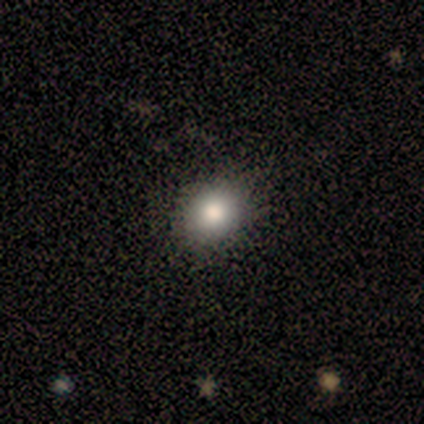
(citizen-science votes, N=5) smooth 80%, featured or disk 20%, star or artifact 0%. Down the decision tree: how rounded — round (50%, tied with in between); merging — none (60%).